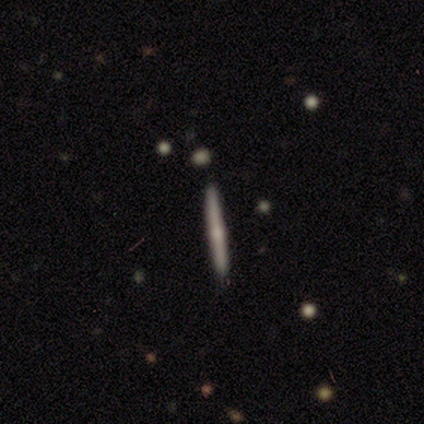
Smooth or featured: featured or disk — 80% (smooth — 20%)
Edge-on disk: yes — 75% (no — 25%)
Edge-on bulge: rounded — 100%
Merging: none — 100%